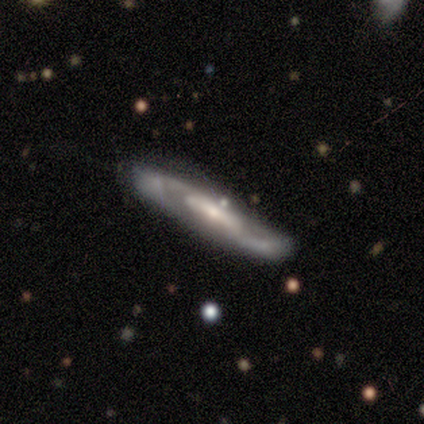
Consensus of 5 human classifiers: smooth-or-featured: featured or disk: 100% | smooth: 0% | star or artifact: 0%
  disk-edge-on: no: 100% | yes: 0%
    bar: strong: 40% (tied) | no: 40% (tied) | weak: 20%
    has-spiral-arms: yes: 80% | no: 20%
      spiral-winding: medium: 75% | loose: 25% | tight: 0%
      spiral-arm-count: 2: 50% (tied) | can't tell: 50% (tied) | 1: 0% | 3: 0% | 4: 0% | more than 4: 0%
    bulge-size: moderate: 80% | small: 20% | dominant: 0% | large: 0% | none: 0%
  merging: none: 60% | minor disturbance: 40% | major disturbance: 0% | merger: 0%